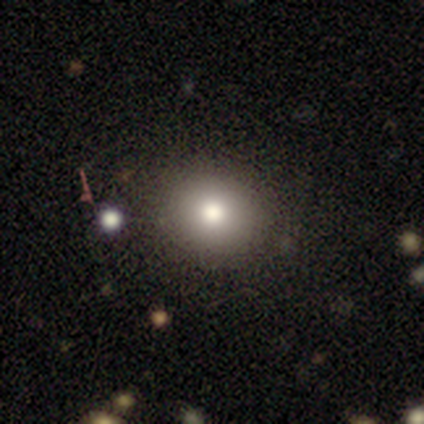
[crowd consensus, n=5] Smooth or featured? 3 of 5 (60%) said smooth. How rounded? 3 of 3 (100%) said round. Merging? 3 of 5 (60%) said minor disturbance.